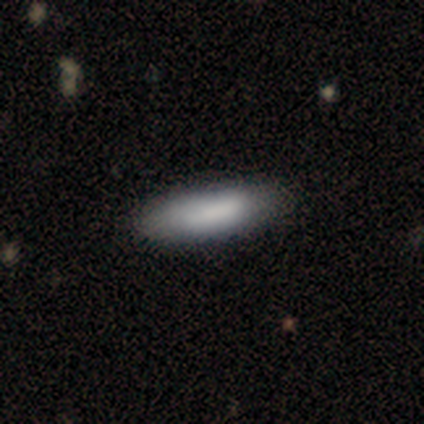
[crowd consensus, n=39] Smooth or featured?
  - smooth: 82% *
  - featured or disk: 18%
  - star or artifact: 0%
How rounded?
  - in between: 62% *
  - cigar-shaped: 38%
  - round: 0%
Merging?
  - none: 74% *
  - minor disturbance: 10%
  - major disturbance: 0%
  - merger: 0%